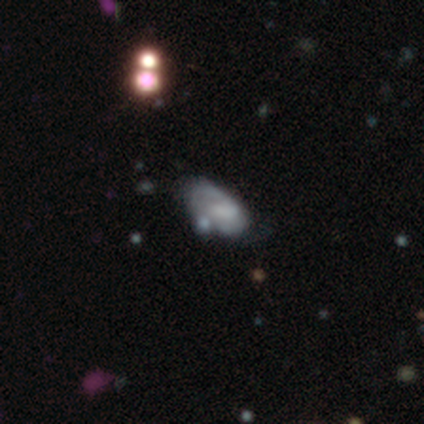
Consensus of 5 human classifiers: Smooth or featured?
  - smooth: 80% *
  - featured or disk: 20%
  - star or artifact: 0%
How rounded?
  - in between: 100% *
  - round: 0%
  - cigar-shaped: 0%
Merging?
  - minor disturbance: 40% *
  - none: 20%
  - major disturbance: 20%
  - merger: 20%